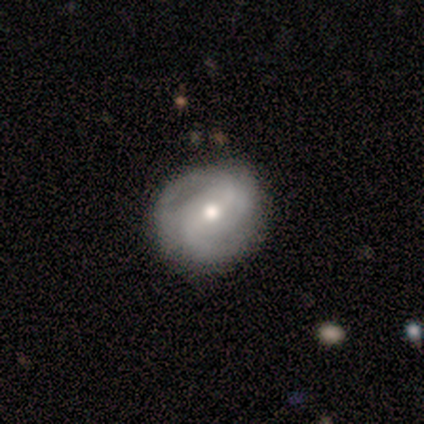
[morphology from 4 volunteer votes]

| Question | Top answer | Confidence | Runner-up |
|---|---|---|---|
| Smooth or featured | smooth | 50% | tied: featured or disk (50%) |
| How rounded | round | 50% | tied: in between (50%) |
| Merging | none | 75% | minor disturbance (25%) |